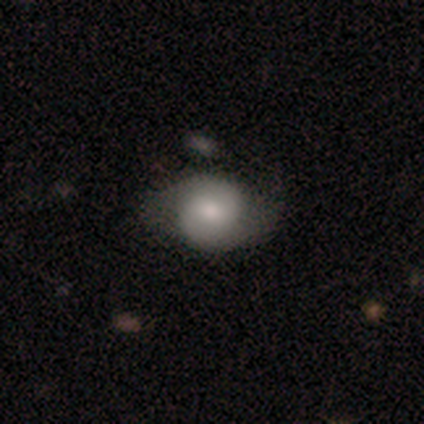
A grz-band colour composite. It shows a smooth galaxy with no disk features (80%) that is in between round and cigar-shaped (75%). Merging: minor disturbance (60%).